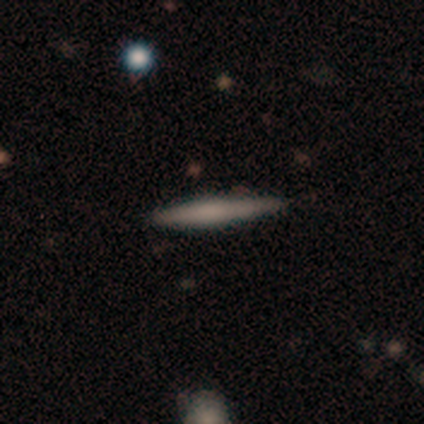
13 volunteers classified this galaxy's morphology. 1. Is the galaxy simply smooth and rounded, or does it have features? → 69% smooth, 23% featured or disk, 8% star or artifact.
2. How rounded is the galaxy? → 100% cigar-shaped, 0% round, 0% in between.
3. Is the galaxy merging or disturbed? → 75% none, 25% minor disturbance, 0% major disturbance, 0% merger.